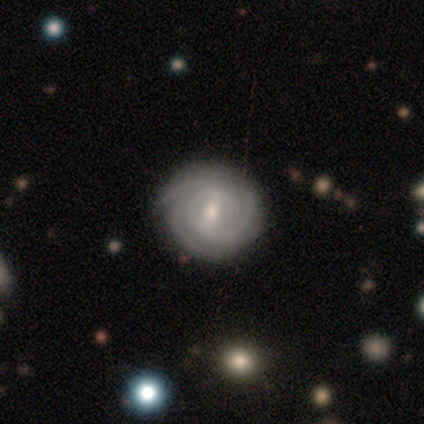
smooth-or-featured: featured or disk: 100% | smooth: 0% | star or artifact: 0%
  disk-edge-on: no: 100% | yes: 0%
    bar: weak: 50% | strong: 25% | no: 25%
    has-spiral-arms: yes: 100% | no: 0%
      spiral-winding: tight: 75% | medium: 25% | loose: 0%
      spiral-arm-count: can't tell: 50% | 2: 25% | 3: 25% | 1: 0% | 4: 0% | more than 4: 0%
    bulge-size: small: 75% | moderate: 25% | dominant: 0% | large: 0% | none: 0%
  merging: none: 75% | minor disturbance: 25% | major disturbance: 0% | merger: 0%